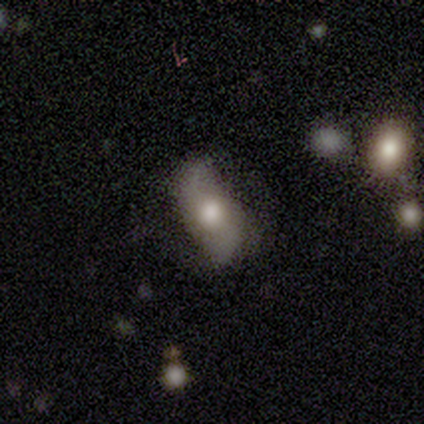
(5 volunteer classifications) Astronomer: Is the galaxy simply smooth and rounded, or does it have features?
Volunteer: featured or disk — 100%.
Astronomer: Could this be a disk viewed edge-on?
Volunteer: no — 80%.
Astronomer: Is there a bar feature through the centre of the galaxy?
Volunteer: no — 75%.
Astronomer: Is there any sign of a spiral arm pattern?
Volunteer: yes — 100%.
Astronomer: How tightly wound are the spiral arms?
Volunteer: loose — 75%.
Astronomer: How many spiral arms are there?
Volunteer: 2 — 100%.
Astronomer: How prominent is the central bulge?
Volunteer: moderate — 100%.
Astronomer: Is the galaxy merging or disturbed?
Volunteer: none — 80%.